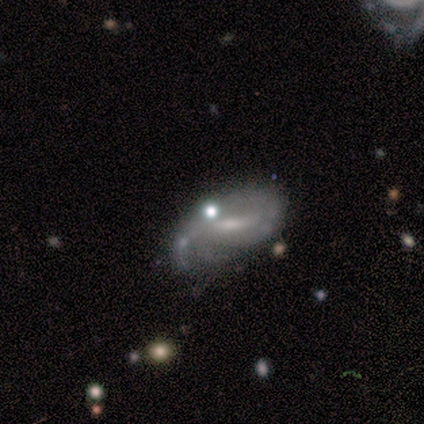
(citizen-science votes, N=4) Q: Smooth or featured?
A: smooth (50%); runner-up: featured or disk (25%)
Q: How rounded?
A: in between (100%)
Q: Merging?
A: major disturbance (67%); runner-up: minor disturbance (33%)